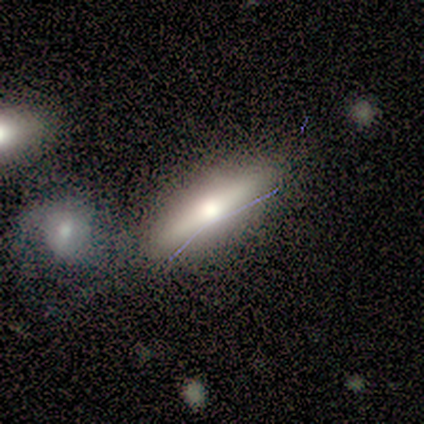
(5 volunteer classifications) smooth 40% (tied), featured or disk 40% (tied), star or artifact 20%. Down the decision tree: how rounded — cigar-shaped (100%); merging — none (75%).